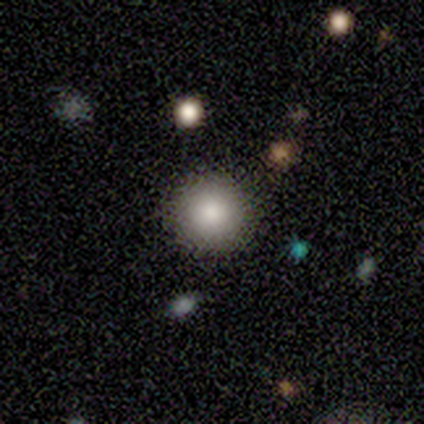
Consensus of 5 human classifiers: Smooth or featured? smooth (60%)
How rounded? round (100%)
Merging? none (67%)